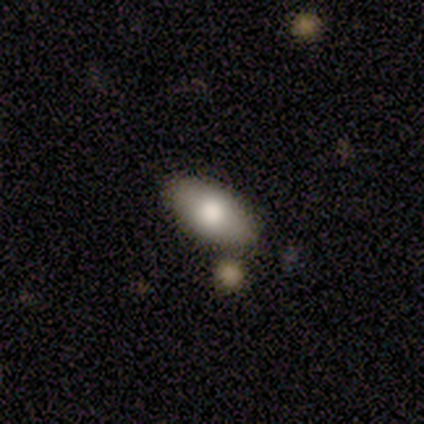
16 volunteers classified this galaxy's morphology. smooth 81%, featured or disk 19%, star or artifact 0%. Down the decision tree: how rounded — in between (100%); merging — none (88%).